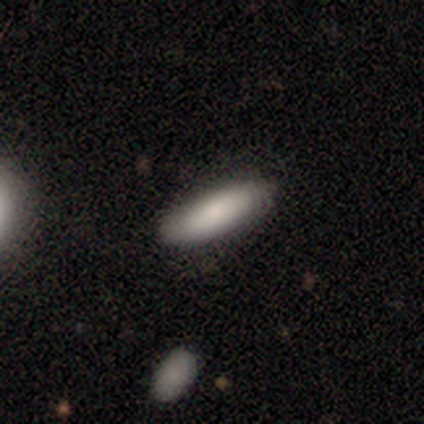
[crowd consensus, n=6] Volunteers were most divided on "how rounded": in between: 80%, cigar-shaped: 20%, round: 0%. More confident: smooth or featured — smooth (83%); merging — none (80%).